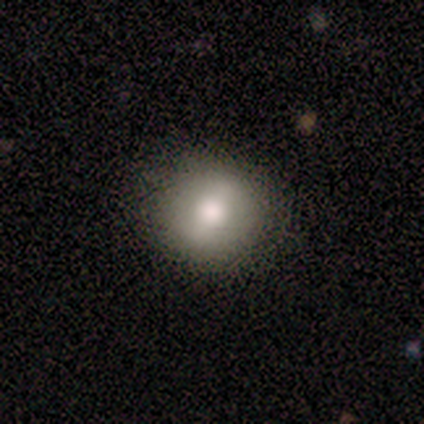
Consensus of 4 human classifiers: Q: Smooth or featured?
A: featured or disk (75%); runner-up: smooth (25%)
Q: Edge-on disk?
A: no (67%); runner-up: yes (33%)
Q: Bar?
A: weak (50%); tied with: no (50%)
Q: Spiral arms?
A: no (100%)
Q: Bulge size?
A: large (50%); tied with: moderate (50%)
Q: Merging?
A: none (100%)